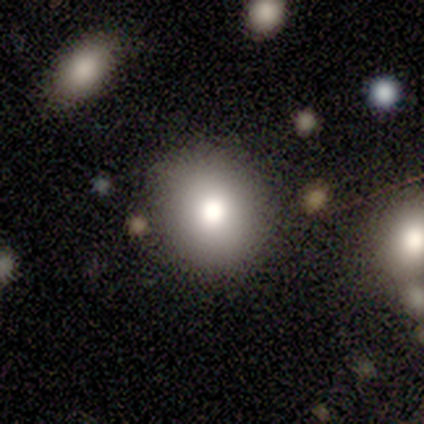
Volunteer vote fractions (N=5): Smooth or featured? 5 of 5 (100%) said smooth. How rounded? 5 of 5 (100%) said round. Merging? 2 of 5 (40%) said none.